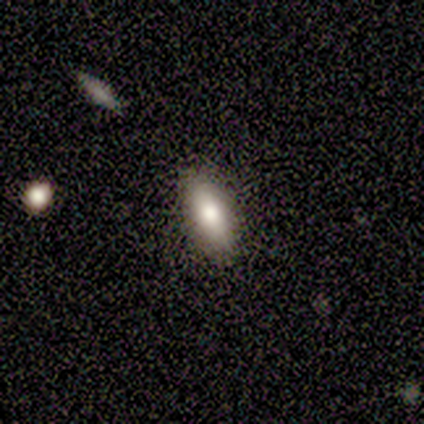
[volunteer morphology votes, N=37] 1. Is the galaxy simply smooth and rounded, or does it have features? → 89% smooth, 5% featured or disk, 5% star or artifact.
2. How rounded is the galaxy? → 67% in between, 33% cigar-shaped, 0% round.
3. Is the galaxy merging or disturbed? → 80% none, 14% minor disturbance, 3% major disturbance, 3% merger.